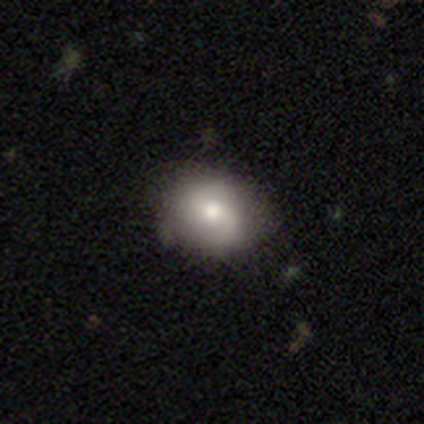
This is possibly a smooth galaxy (50%). How rounded: possibly round (50%, tied with in between). Merging: clearly none (100%).